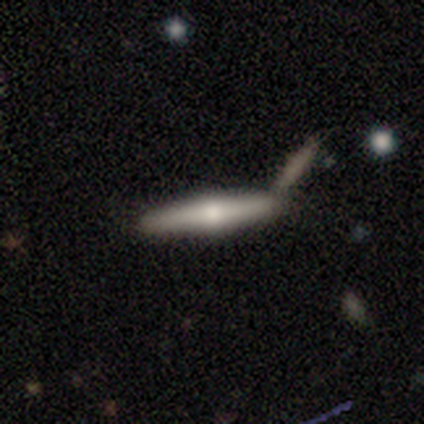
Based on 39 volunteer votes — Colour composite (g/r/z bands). It shows a featured or disk galaxy (51%) viewed edge-on (100%) with a rounded central bulge (90%). Merging: none (74%).